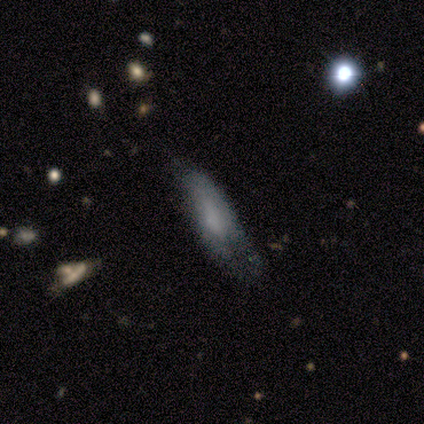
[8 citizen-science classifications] smooth_or_featured: smooth (p=0.62) [alt: featured or disk p=0.38]
how_rounded: cigar-shaped (p=0.60) [alt: in between p=0.40]
merging: minor disturbance (p=0.38) [tied with: major disturbance p=0.38]